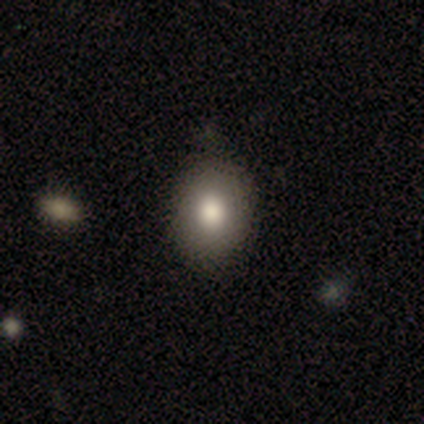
Morphology: type=smooth (80%); roundness=round (75%); merging=none (50%, tied with minor disturbance).